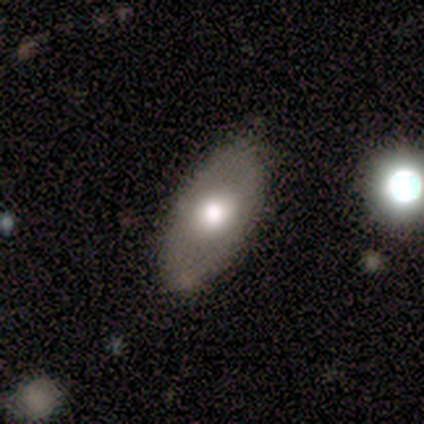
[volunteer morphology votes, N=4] Smooth or featured? 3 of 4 (75%) said smooth. How rounded? 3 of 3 (100%) said in between. Merging? 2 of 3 (67%) said none.